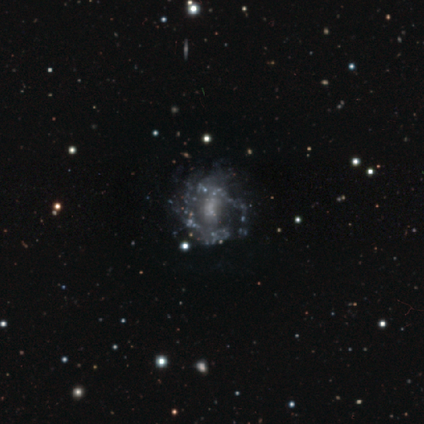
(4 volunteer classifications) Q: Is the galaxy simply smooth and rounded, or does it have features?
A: featured or disk — 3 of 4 (75%).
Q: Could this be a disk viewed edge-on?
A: no — 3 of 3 (100%).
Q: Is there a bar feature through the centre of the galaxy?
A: no — 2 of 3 (67%).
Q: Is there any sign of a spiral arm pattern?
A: no — 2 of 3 (67%).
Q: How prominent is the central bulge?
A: none — 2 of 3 (67%).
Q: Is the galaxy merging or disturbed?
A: none — 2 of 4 (50%).